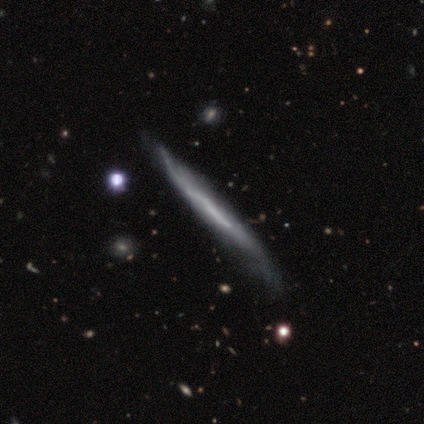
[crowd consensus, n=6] A smooth galaxy with no disk features (50%) that is cigar-shaped (100%).

Vote fractions:
- Smooth or featured? smooth: 50% / featured or disk: 33% / star or artifact: 17%
- How rounded? cigar-shaped: 100% / round: 0% / in between: 0%
- Merging? minor disturbance: 80% / none: 20% / major disturbance: 0% / merger: 0%